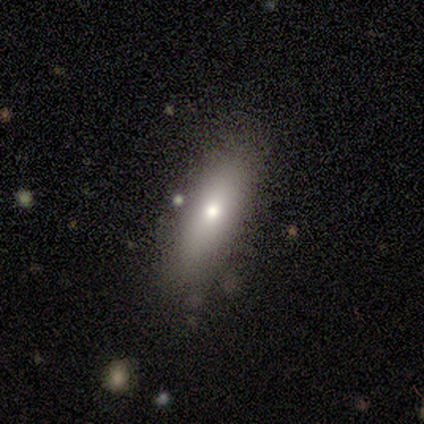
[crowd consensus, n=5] Smooth or featured? smooth (60%)
How rounded? in between (67%)
Merging? none (100%)